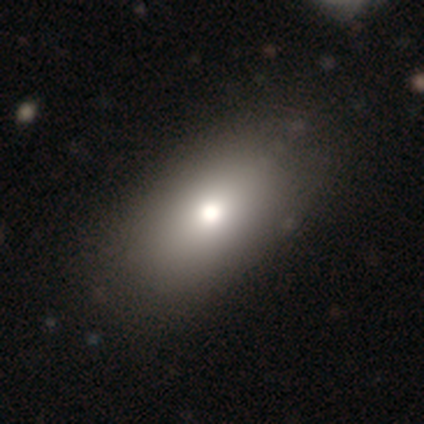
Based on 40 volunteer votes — smooth 75%, featured or disk 15%, star or artifact 10%. Down the decision tree: how rounded — in between (87%); merging — none (75%).